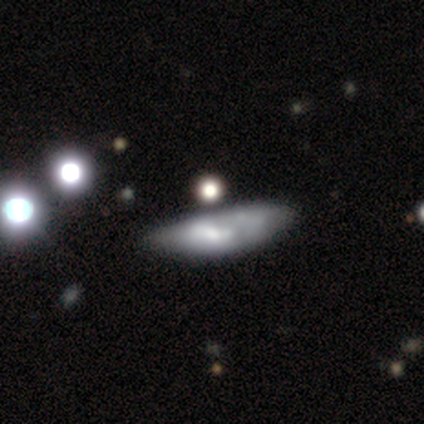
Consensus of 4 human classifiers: Volunteers were most divided on "how rounded" (2-way tie): in between: 50%, cigar-shaped: 50%, round: 0%. More confident: smooth or featured — smooth (100%); merging — none (50%).